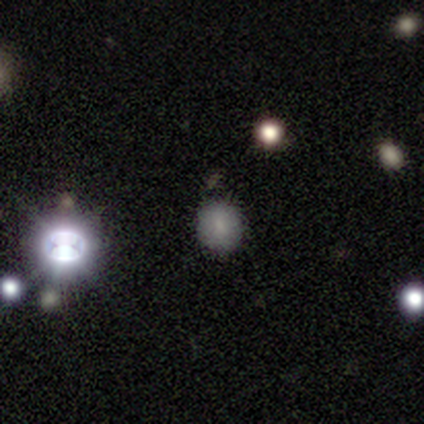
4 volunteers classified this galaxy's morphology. Smooth or featured? smooth (50%)
How rounded? round (100%)
Merging? none (67%)